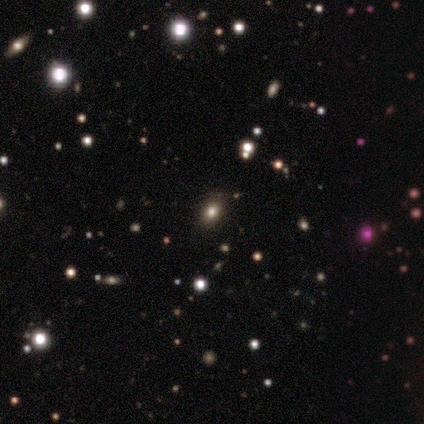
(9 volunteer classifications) Smooth or featured: smooth — 78% (star or artifact — 22%)
How rounded: in between — 86% (round — 14%)
Merging: none — 100%